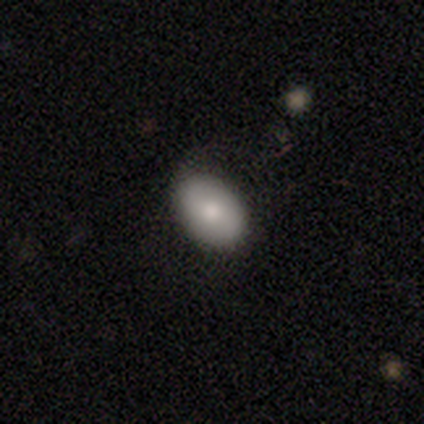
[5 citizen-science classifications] This is clearly a smooth galaxy (100%). How rounded: clearly in between (80%). Merging: likely none (60%).